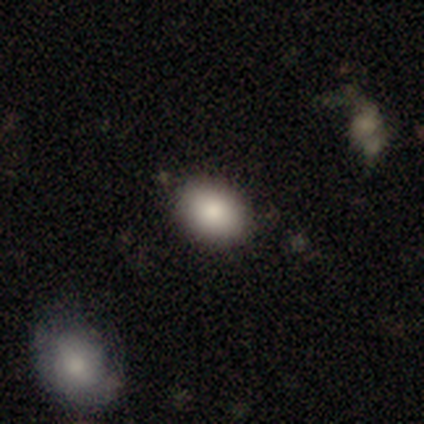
A smooth galaxy with no disk features (88%) that is in between round and cigar-shaped (83%).

Vote fractions:
- Smooth or featured? smooth: 88% / star or artifact: 7% / featured or disk: 5%
- How rounded? in between: 83% / round: 17% / cigar-shaped: 0%
- Merging? none: 71% / merger: 5% / minor disturbance: 3% / major disturbance: 0%